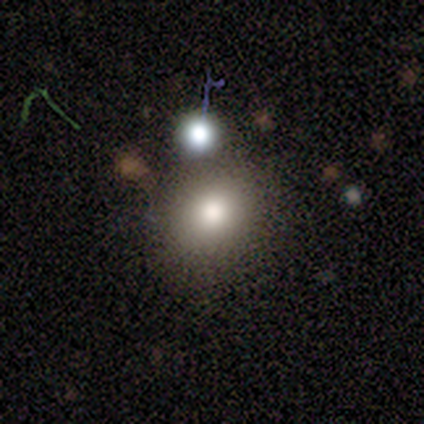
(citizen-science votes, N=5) Smooth or featured? smooth (100%)
How rounded? round (60%)
Merging? none (60%)